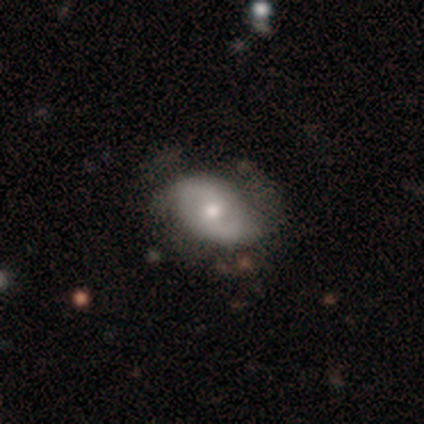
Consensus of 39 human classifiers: Smooth or featured?
  - featured or disk: 59% *
  - smooth: 38%
  - star or artifact: 3%
Edge-on disk?
  - no: 96% *
  - yes: 4%
Bar?
  - no: 55% *
  - weak: 41%
  - strong: 5%
Spiral arms?
  - yes: 64% *
  - no: 36%
Spiral winding?
  - medium: 50% *
  - tight: 36%
  - loose: 14%
Spiral arm count?
  - 2: 93% *
  - 1: 7%
  - 3: 0%
  - 4: 0%
  - more than 4: 0%
  - can't tell: 0%
Bulge size?
  - moderate: 68% *
  - small: 23%
  - large: 5%
  - none: 5%
  - dominant: 0%
Merging?
  - none: 61% *
  - minor disturbance: 24%
  - major disturbance: 13%
  - merger: 3%